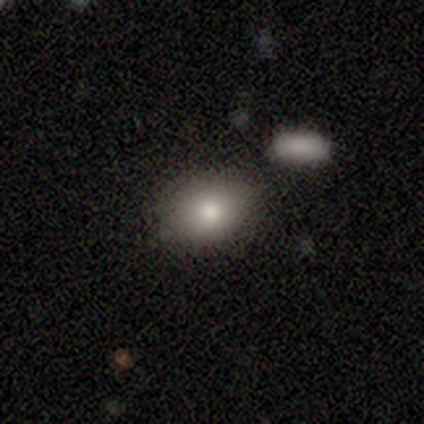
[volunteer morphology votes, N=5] smooth 100%, featured or disk 0%, star or artifact 0%. Down the decision tree: how rounded — in between (100%); merging — none (60%).